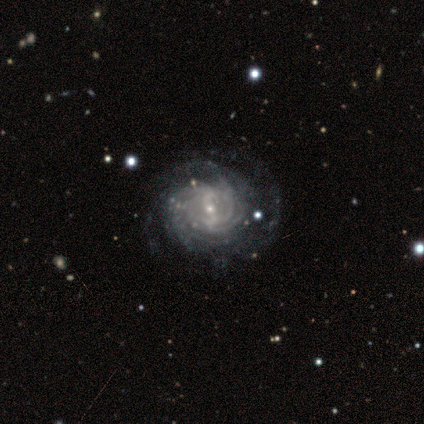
Q: Smooth or featured?
A: featured or disk (80%); runner-up: smooth (20%)
Q: Edge-on disk?
A: no (100%)
Q: Bar?
A: weak (75%); runner-up: no (25%)
Q: Spiral arms?
A: yes (100%)
Q: Spiral winding?
A: tight (100%)
Q: Spiral arm count?
A: can't tell (50%); runner-up: 4 (25%)
Q: Bulge size?
A: small (100%)
Q: Merging?
A: none (40%); tied with: minor disturbance (40%)